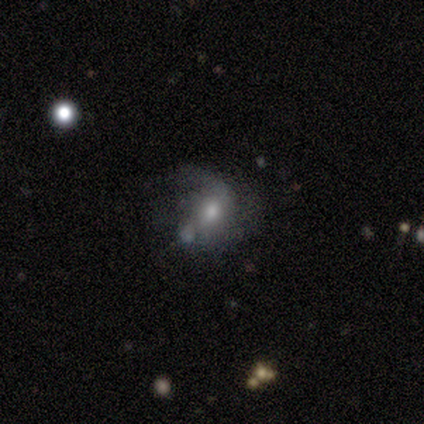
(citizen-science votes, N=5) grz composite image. It shows a featured or disk galaxy (100%) with no bar (60%), loose (50%) spiral arms (80%) and a moderate central bulge (40%, tied with small). Merging: none (40%, tied with minor disturbance).